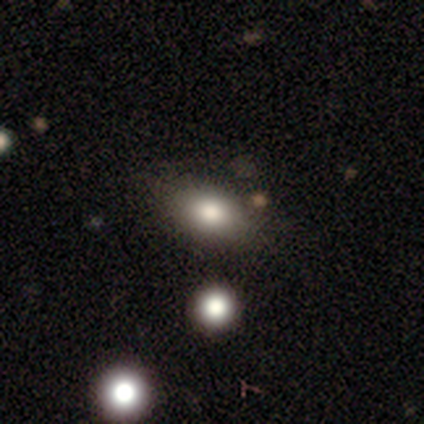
smooth-or-featured: smooth: 100% | featured or disk: 0% | star or artifact: 0%
  how-rounded: in between: 71% | round: 14% | cigar-shaped: 14%
  merging: none: 71% | minor disturbance: 29% | major disturbance: 0% | merger: 0%